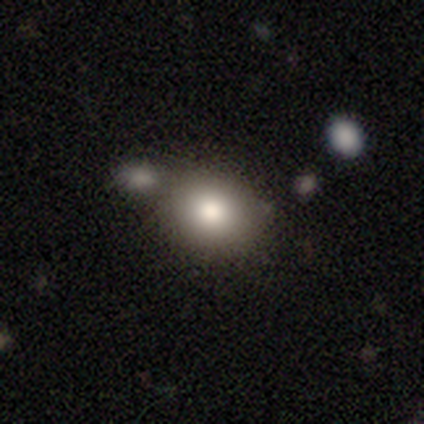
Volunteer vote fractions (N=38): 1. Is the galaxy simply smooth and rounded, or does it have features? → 89% smooth, 8% featured or disk, 3% star or artifact.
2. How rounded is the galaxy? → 68% round, 32% in between, 0% cigar-shaped.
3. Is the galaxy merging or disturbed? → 68% none, 16% merger, 11% minor disturbance, 5% major disturbance.